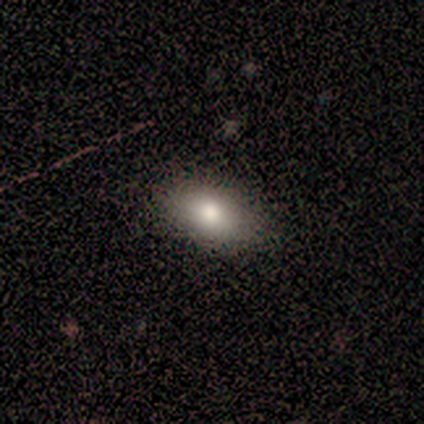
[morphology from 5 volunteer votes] Smooth or featured? smooth (80%)
How rounded? in between (100%)
Merging? none (100%)